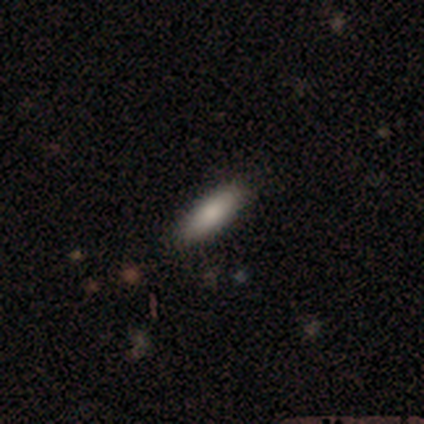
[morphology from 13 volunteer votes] This appears to be a smooth galaxy with no disk features (85%) that is cigar-shaped (55%). Merging: none (77%).